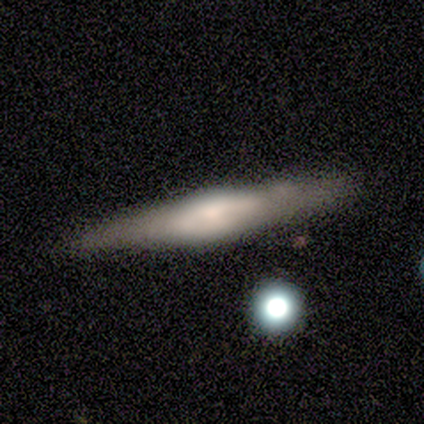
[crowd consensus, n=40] featured or disk 75%, smooth 20%, star or artifact 5%. Down the decision tree: edge-on disk — yes (90%); edge-on bulge — rounded (74%); merging — none (61%).